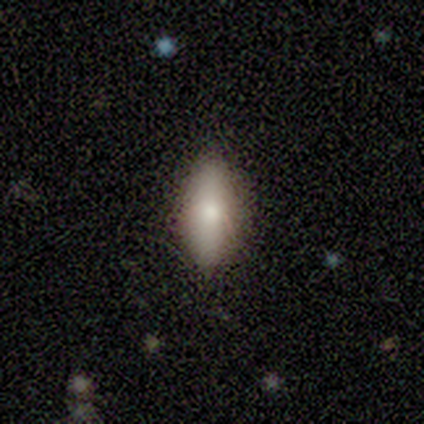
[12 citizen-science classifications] Smooth or featured? 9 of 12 (75%) said smooth. How rounded? 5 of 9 (56%) said in between. Merging? 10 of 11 (91%) said none.